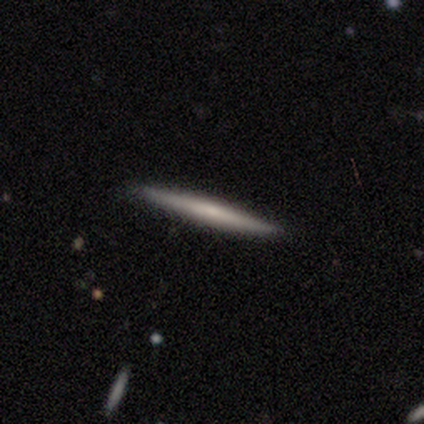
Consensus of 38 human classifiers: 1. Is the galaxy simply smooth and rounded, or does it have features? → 55% smooth, 45% featured or disk, 0% star or artifact.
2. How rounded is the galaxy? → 100% cigar-shaped, 0% round, 0% in between.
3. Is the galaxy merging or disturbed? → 97% none, 3% minor disturbance, 0% major disturbance, 0% merger.